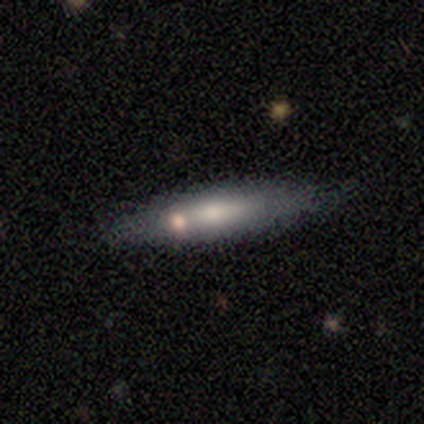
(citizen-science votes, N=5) smooth 80%, featured or disk 20%, star or artifact 0%. Down the decision tree: how rounded — in between (75%); merging — none (100%).